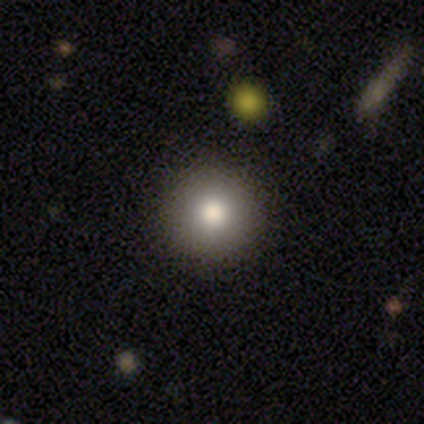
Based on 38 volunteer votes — smooth-or-featured: smooth: 74% | featured or disk: 18% | star or artifact: 8%
  how-rounded: round: 96% | in between: 4% | cigar-shaped: 0%
  merging: none: 74% | merger: 3% | minor disturbance: 0% | major disturbance: 0%